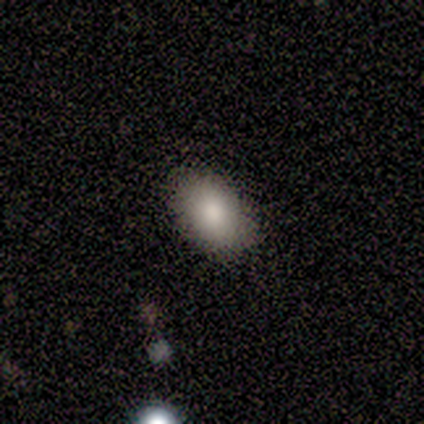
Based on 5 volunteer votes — This appears to be a smooth galaxy with no disk features (60%) that is in between round and cigar-shaped (100%). Merging: none (75%).